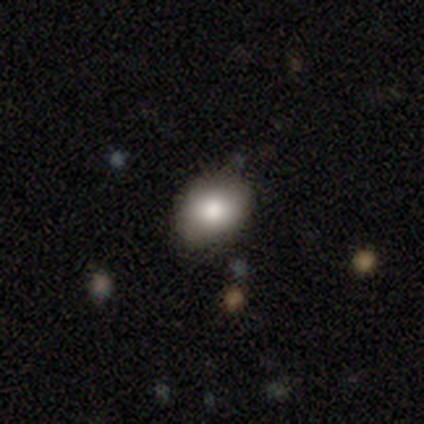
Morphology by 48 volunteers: This is clearly a smooth galaxy (81%). How rounded: likely round (62%). Merging: likely none (77%).